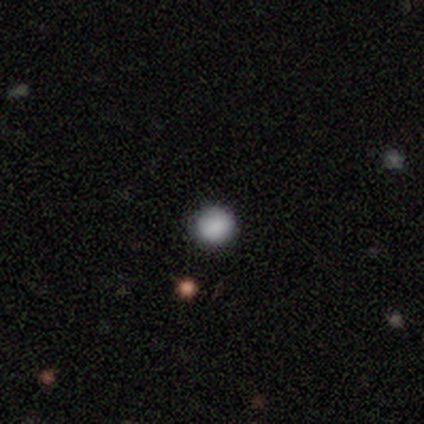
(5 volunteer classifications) Q: Smooth or featured?
A: smooth (80%); runner-up: star or artifact (20%)
Q: How rounded?
A: round (100%)
Q: Merging?
A: none (100%)